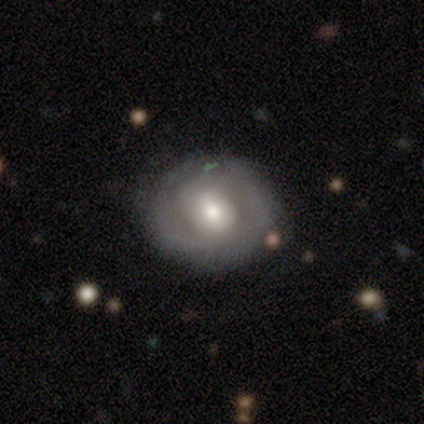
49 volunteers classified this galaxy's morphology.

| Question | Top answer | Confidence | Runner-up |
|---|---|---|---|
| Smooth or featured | featured or disk | 65% | smooth (27%) |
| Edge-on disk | no | 97% | yes (3%) |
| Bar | no | 65% | weak (19%) |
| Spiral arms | yes | 65% | no (35%) |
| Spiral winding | tight | 70% | medium (30%) |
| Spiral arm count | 2 | 60% | can't tell (25%) |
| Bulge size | moderate | 81% | large (10%) |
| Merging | none | 76% | minor disturbance (18%) |